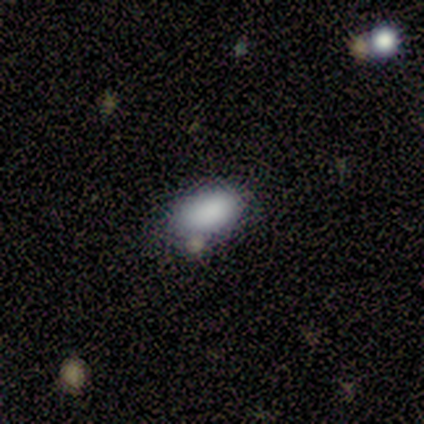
This is clearly a smooth galaxy (80%). How rounded: clearly in between (100%). Merging: clearly none (100%).